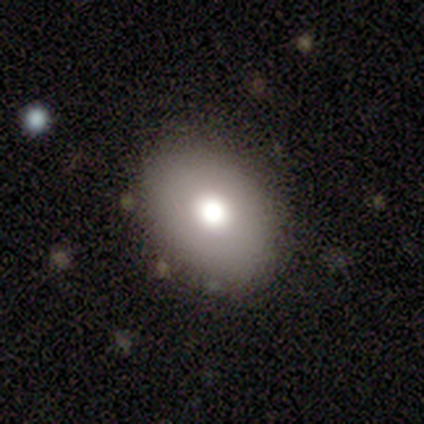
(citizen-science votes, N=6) Smooth or featured? 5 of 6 (83%) said smooth. How rounded? 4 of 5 (80%) said round. Merging? 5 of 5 (100%) said none.